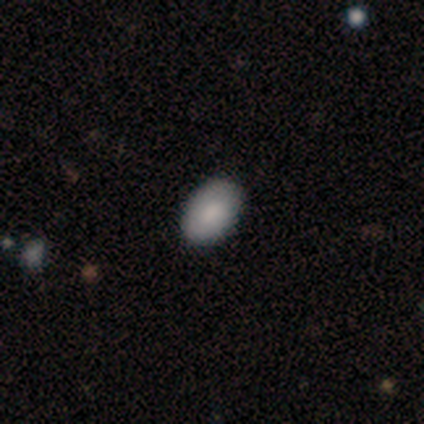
This is possibly a smooth galaxy (50%, tied with featured or disk). How rounded: clearly in between (100%). Merging: likely none (75%).